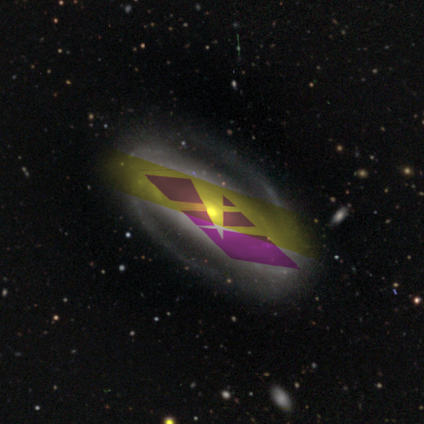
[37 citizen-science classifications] Morphology: type=featured or disk (73%); edge-on=no (89%); bar=strong (50%); spiral arms=yes (96%); winding=medium (57%); arm count=2 (78%); bulge=moderate (67%); merging=none (73%).